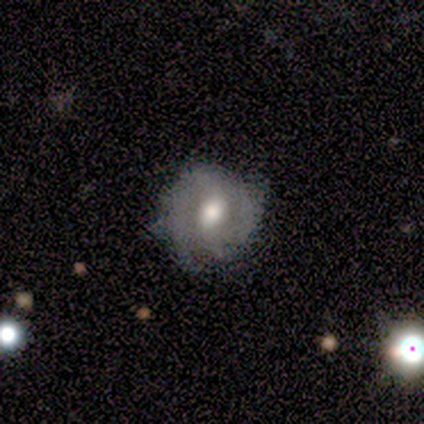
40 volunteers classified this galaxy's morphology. Q: Smooth or featured?
A: featured or disk (68%); runner-up: smooth (30%)
Q: Edge-on disk?
A: no (89%); runner-up: yes (11%)
Q: Bar?
A: weak (50%); runner-up: no (42%)
Q: Spiral arms?
A: yes (75%); runner-up: no (25%)
Q: Spiral winding?
A: tight (56%); runner-up: medium (39%)
Q: Spiral arm count?
A: 2 (50%); runner-up: can't tell (22%)
Q: Bulge size?
A: moderate (58%); runner-up: large (25%)
Q: Merging?
A: none (62%); runner-up: minor disturbance (26%)